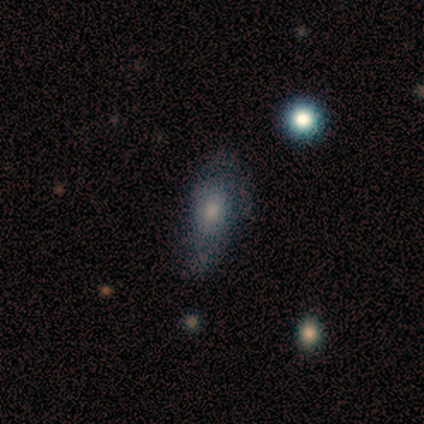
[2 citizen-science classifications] smooth_or_featured: smooth (p=0.50) [tied with: featured or disk p=0.50]
how_rounded: in between (p=1.00)
merging: minor disturbance (p=0.50) [tied with: major disturbance p=0.50]